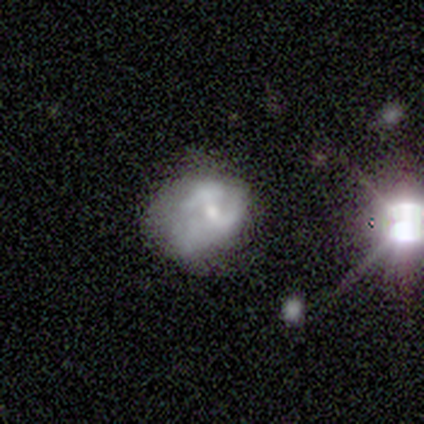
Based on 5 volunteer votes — Smooth or featured? smooth (40%, tied with star or artifact)
How rounded? in between (100%)
Merging? none (67%)